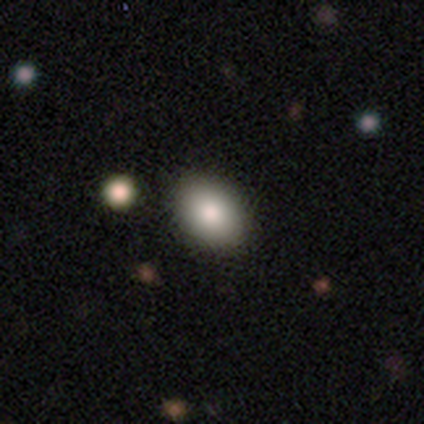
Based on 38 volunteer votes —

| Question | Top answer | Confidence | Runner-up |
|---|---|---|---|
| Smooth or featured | smooth | 76% | featured or disk (18%) |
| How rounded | in between | 83% | round (17%) |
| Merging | none | 58% | merger (14%) |